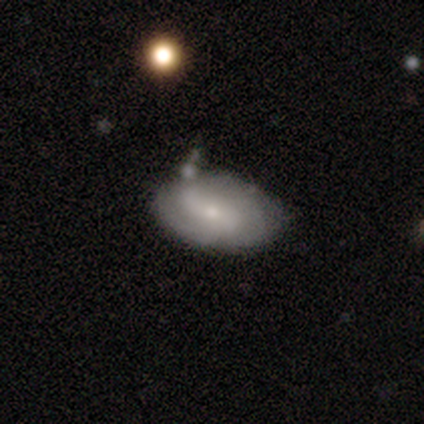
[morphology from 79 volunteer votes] Q: Smooth or featured?
A: featured or disk (71%); runner-up: smooth (24%)
Q: Edge-on disk?
A: no (100%)
Q: Bar?
A: weak (48%); runner-up: no (32%)
Q: Spiral arms?
A: yes (80%); runner-up: no (20%)
Q: Spiral winding?
A: medium (38%); runner-up: tight (36%)
Q: Spiral arm count?
A: 2 (47%); runner-up: can't tell (33%)
Q: Bulge size?
A: small (66%); runner-up: moderate (27%)
Q: Merging?
A: none (24%); runner-up: merger (16%)